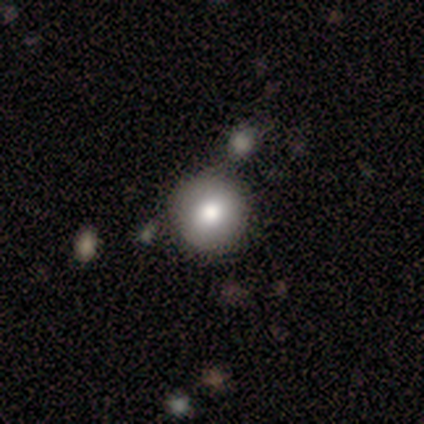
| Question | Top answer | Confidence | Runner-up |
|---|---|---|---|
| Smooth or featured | smooth | 67% | star or artifact (33%) |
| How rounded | round | 100% | — |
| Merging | none | 100% | — |